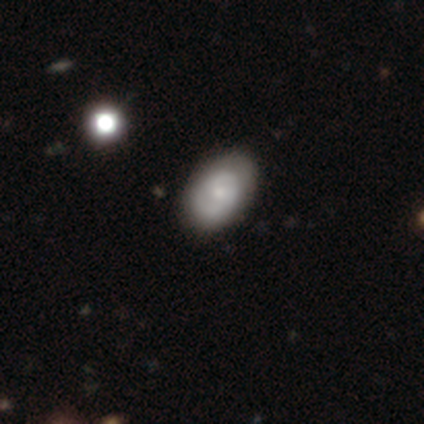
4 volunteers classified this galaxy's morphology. Smooth or featured: smooth — 75% (star or artifact — 25%)
How rounded: in between — 100%
Merging: none — 100%